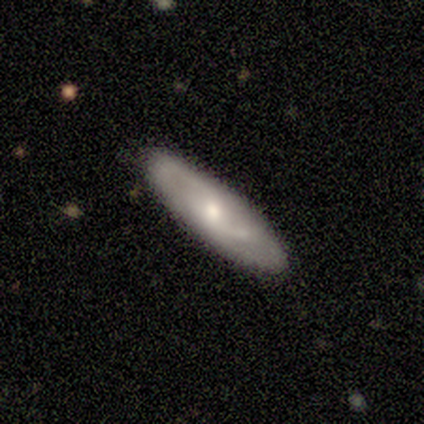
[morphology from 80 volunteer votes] featured or disk 56%, smooth 40%, star or artifact 4%. Down the decision tree: edge-on disk — no (91%); bar — no (59%); spiral arms — yes (71%); spiral arm count — can't tell (45%); spiral winding — medium (59%); bulge size — moderate (66%); merging — none (84%).